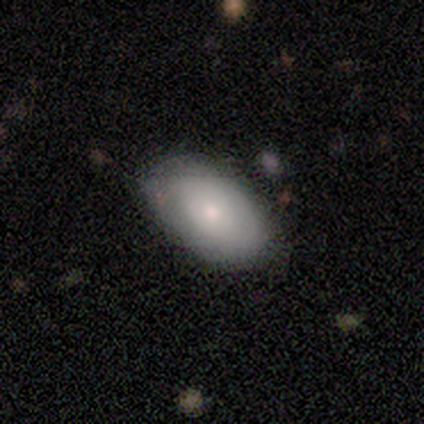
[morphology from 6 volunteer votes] Overall: smooth (100%). How rounded: in between (100%). Merging: none (83%).